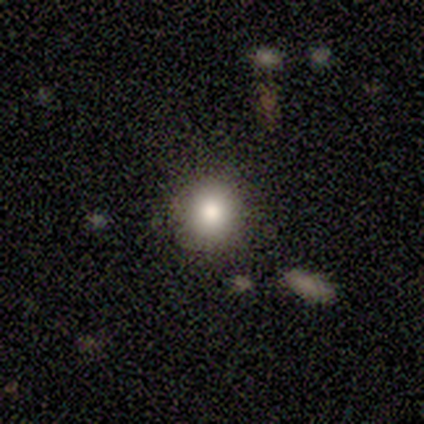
smooth_or_featured: smooth (p=1.00)
how_rounded: round (p=1.00)
merging: none (p=1.00)